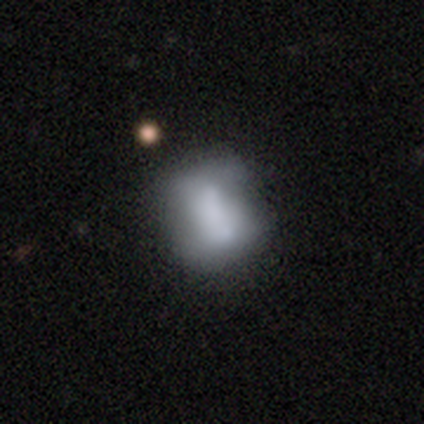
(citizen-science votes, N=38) Overall: smooth (66%; featured or disk 32%). How rounded: in between (60%; round 36%). Merging: merger (27%; minor disturbance 24%).